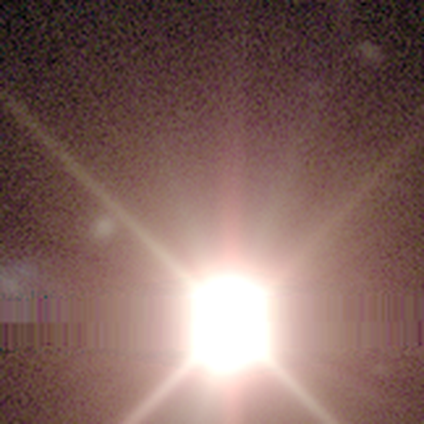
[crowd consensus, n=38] This is clearly a star or artifact rather than a galaxy (95%).